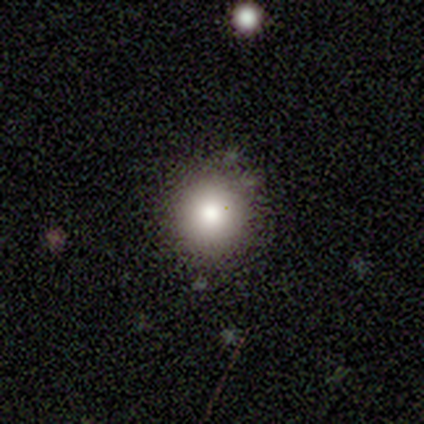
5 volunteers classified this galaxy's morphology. Overall: smooth (60%; star or artifact 40%). How rounded: round (100%). Merging: none (100%).